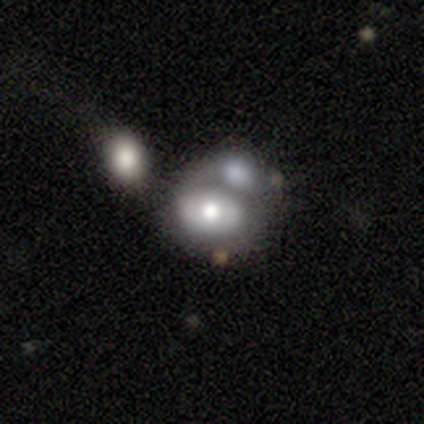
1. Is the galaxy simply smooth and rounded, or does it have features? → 58% smooth, 42% featured or disk, 0% star or artifact.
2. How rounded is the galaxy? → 64% in between, 32% round, 5% cigar-shaped.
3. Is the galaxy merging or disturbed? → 61% merger, 0% none, 0% minor disturbance, 0% major disturbance.